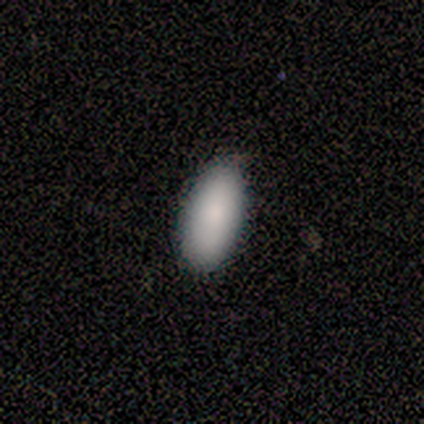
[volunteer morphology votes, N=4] smooth-or-featured: smooth: 75% | featured or disk: 25% | star or artifact: 0%
  how-rounded: in between: 100% | round: 0% | cigar-shaped: 0%
  merging: none: 75% | minor disturbance: 25% | major disturbance: 0% | merger: 0%